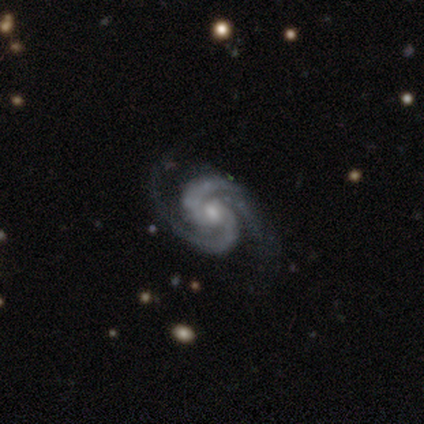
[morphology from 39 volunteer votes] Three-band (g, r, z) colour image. It shows a featured or disk galaxy (97%) with no bar (58%), 2 (86%) tight (51%) spiral arms (97%) and a small central bulge (53%). Merging: none (76%).